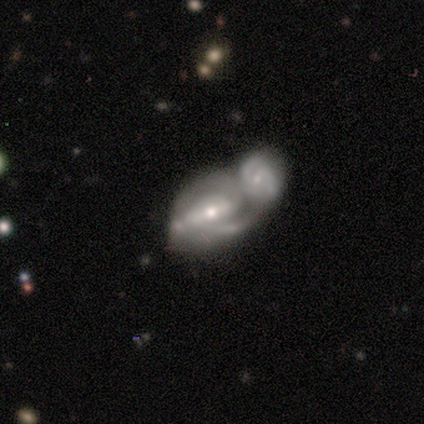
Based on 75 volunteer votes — Smooth or featured: featured or disk — 85% (smooth — 13%)
Edge-on disk: no — 95% (yes — 5%)
Bar: strong — 43% (weak — 38%)
Spiral arms: yes — 90% (no — 10%)
Spiral winding: medium — 44% (tight — 38%)
Spiral arm count: 2 — 65% (can't tell — 20%)
Bulge size: moderate — 52% (small — 38%)
Merging: merger — 93% (minor disturbance — 3%)